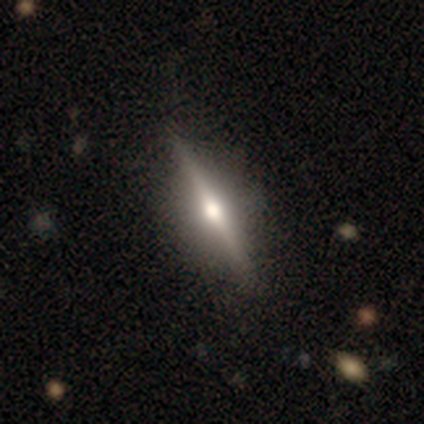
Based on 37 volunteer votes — Smooth or featured?
  - featured or disk: 84% *
  - smooth: 14%
  - star or artifact: 3%
Edge-on disk?
  - yes: 90% *
  - no: 10%
Edge-on bulge?
  - rounded: 96% *
  - boxy: 4%
  - none: 0%
Merging?
  - none: 64% *
  - minor disturbance: 8%
  - major disturbance: 0%
  - merger: 0%